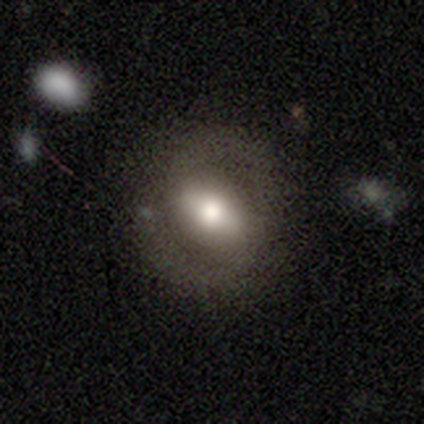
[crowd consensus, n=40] featured or disk 57%, smooth 42%, star or artifact 0%. Down the decision tree: edge-on disk — no (87%); bar — strong (35%, tied with weak); spiral arms — yes (75%); spiral arm count — 2 (87%); spiral winding — medium (60%); bulge size — large (40%, tied with moderate); merging — none (85%).